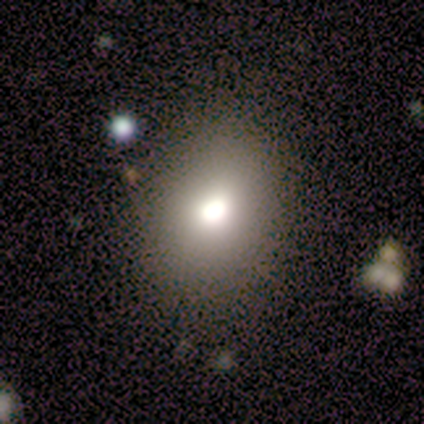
Overall: smooth (60%; star or artifact 40%). How rounded: in between (67%; round 33%). Merging: none (100%).